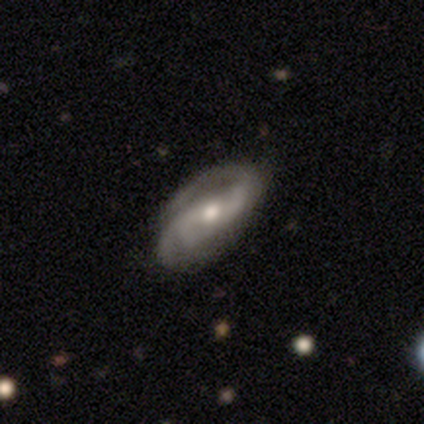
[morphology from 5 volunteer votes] Smooth or featured? 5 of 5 (100%) said featured or disk. Edge-on disk? 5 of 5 (100%) said no. Bar? 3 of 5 (60%) said strong. Spiral arms? 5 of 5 (100%) said yes. Spiral winding? 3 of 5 (60%) said tight. Spiral arm count? 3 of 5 (60%) said 2. Bulge size? 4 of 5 (80%) said moderate. Merging? 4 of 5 (80%) said none.